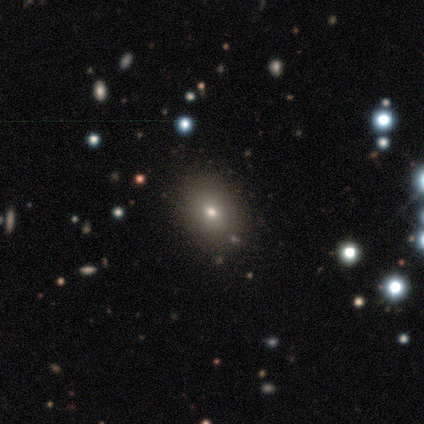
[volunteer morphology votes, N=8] Smooth or featured: smooth — 62% (star or artifact — 25%)
How rounded: in between — 80% (round — 20%)
Merging: none — 83% (major disturbance — 17%)